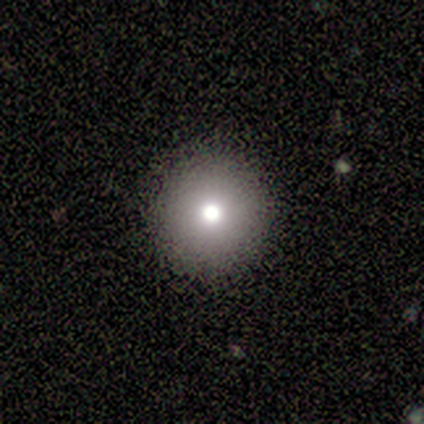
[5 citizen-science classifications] Overall: smooth (80%). How rounded: round (100%). Merging: none (100%).